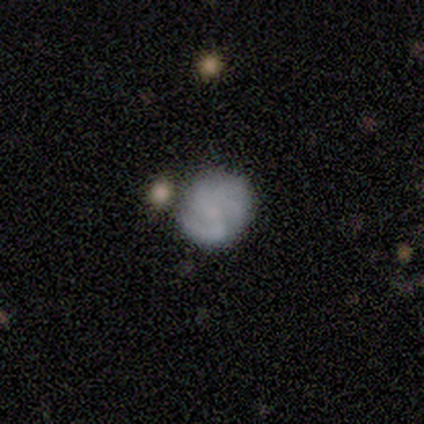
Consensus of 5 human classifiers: Morphology: type=smooth (40%, tied with featured or disk); roundness=round (100%); merging=none (100%).